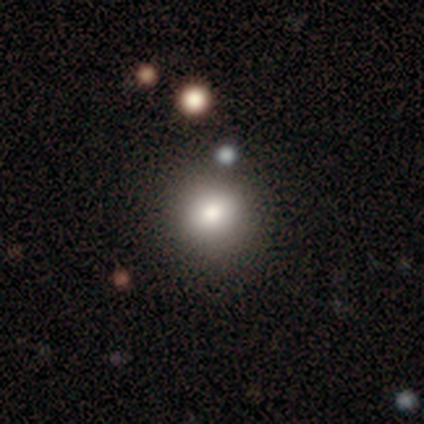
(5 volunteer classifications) Q: Smooth or featured?
A: smooth (80%); runner-up: star or artifact (20%)
Q: How rounded?
A: round (75%); runner-up: in between (25%)
Q: Merging?
A: minor disturbance (75%); runner-up: none (25%)